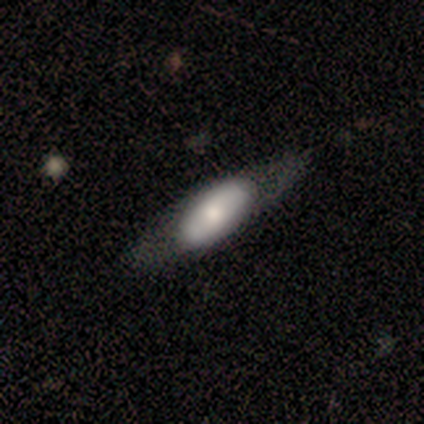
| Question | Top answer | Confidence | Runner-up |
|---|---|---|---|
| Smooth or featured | featured or disk | 80% | smooth (20%) |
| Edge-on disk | no | 75% | yes (25%) |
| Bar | no | 100% | — |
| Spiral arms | no | 67% | yes (33%) |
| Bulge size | small | 67% | moderate (33%) |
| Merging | none | 60% | minor disturbance (20%) |